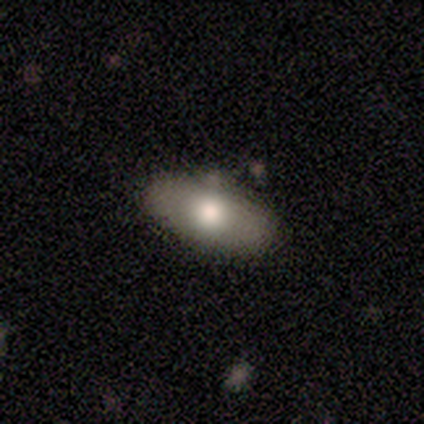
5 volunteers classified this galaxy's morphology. Volunteers were most divided on "smooth or featured": featured or disk: 60%, smooth: 40%, star or artifact: 0%. More confident: edge-on disk — no (100%); spiral arms — no (100%); bar — no (67%); bulge size — small (67%); merging — none (60%).